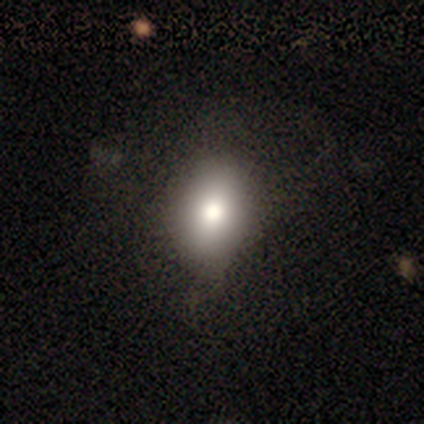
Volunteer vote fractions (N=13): smooth 62%, featured or disk 23%, star or artifact 15%. Down the decision tree: how rounded — in between (75%); merging — none (45%).